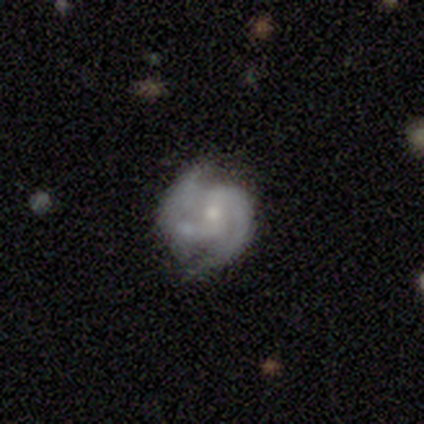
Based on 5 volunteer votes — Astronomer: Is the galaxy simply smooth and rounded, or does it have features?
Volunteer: featured or disk — 100%.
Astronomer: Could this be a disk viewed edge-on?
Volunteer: no — 100%.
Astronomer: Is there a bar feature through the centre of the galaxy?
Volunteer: weak — 60% (runner-up: no, 40%).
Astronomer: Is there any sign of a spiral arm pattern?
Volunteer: yes — 100%.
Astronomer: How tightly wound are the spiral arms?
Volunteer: medium — 80%.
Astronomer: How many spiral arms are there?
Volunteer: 2 — 100%.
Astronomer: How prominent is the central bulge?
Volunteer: moderate — 60%.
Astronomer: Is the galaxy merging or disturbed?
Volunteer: minor disturbance — 40%, tied with merger at 40%.